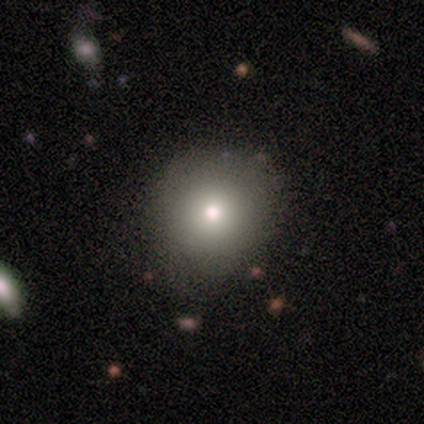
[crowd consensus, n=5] smooth-or-featured: smooth: 100% | featured or disk: 0% | star or artifact: 0%
  how-rounded: round: 100% | in between: 0% | cigar-shaped: 0%
  merging: none: 80% | minor disturbance: 20% | major disturbance: 0% | merger: 0%